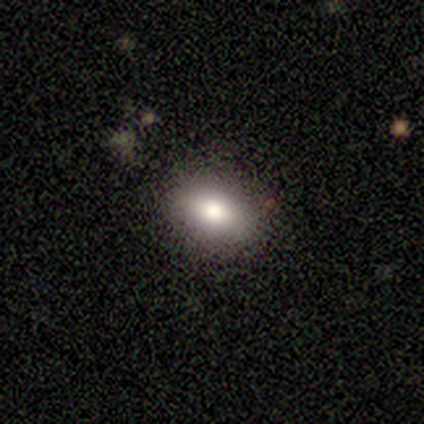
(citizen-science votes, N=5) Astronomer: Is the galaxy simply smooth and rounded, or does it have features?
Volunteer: smooth — 60%.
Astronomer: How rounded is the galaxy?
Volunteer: round — 67%.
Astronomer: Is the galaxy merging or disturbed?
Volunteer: none — 100%.